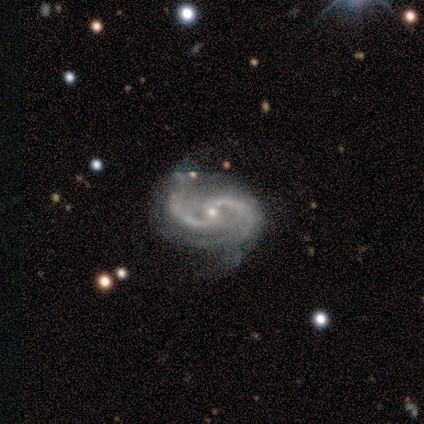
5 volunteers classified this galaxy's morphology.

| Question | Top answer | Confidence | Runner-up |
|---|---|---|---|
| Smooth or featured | featured or disk | 100% | — |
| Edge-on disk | no | 100% | — |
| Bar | weak | 40% | tied: no (40%) |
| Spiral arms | yes | 100% | — |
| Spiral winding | medium | 80% | loose (20%) |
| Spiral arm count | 2 | 80% | can't tell (20%) |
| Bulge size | small | 60% | moderate (40%) |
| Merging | none | 40% | tied: major disturbance (40%) |